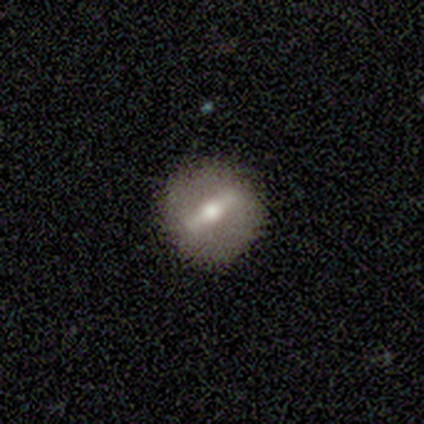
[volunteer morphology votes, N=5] Smooth or featured? featured or disk (80%)
Edge-on disk? yes (75%)
Edge-on bulge? rounded (67%)
Merging? none (100%)